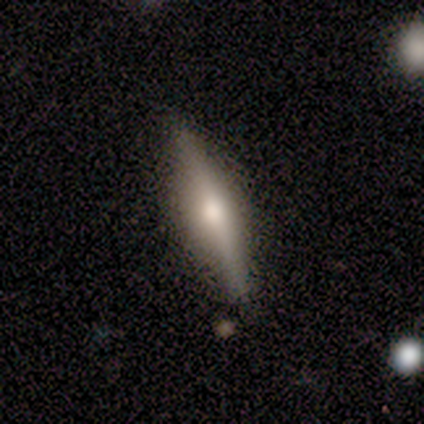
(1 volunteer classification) This appears to be a featured or disk galaxy (100%) viewed edge-on (100%) with a rounded central bulge (100%). Merging: major disturbance (100%).